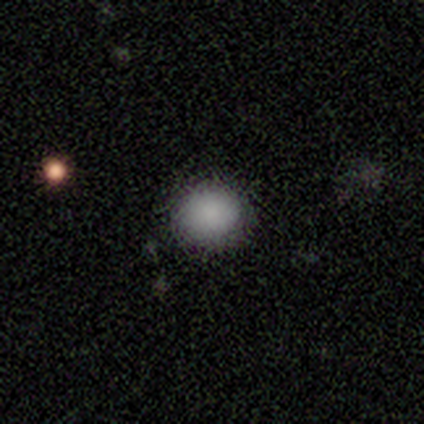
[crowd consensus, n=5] This is clearly a smooth galaxy (80%). How rounded: clearly round (100%). Merging: clearly none (100%).